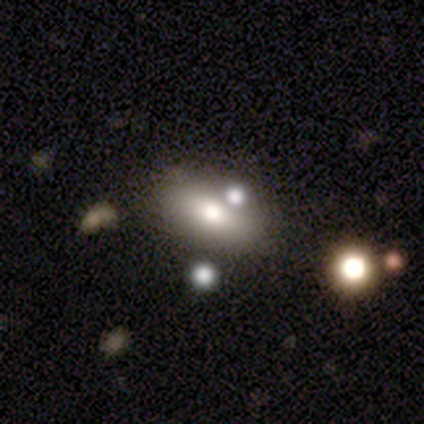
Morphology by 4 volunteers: smooth-or-featured: smooth: 50% | featured or disk: 25% | star or artifact: 25%
  how-rounded: in between: 100% | round: 0% | cigar-shaped: 0%
  merging: merger: 67% | none: 33% | minor disturbance: 0% | major disturbance: 0%